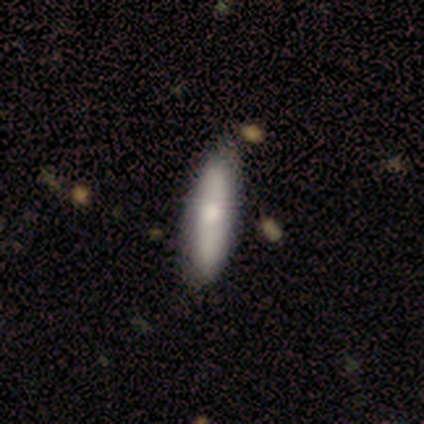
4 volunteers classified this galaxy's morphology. smooth 50% (tied), featured or disk 50% (tied), star or artifact 0%. Down the decision tree: how rounded — cigar-shaped (100%); merging — none (75%).